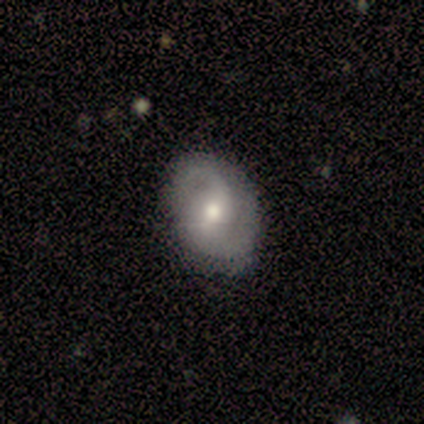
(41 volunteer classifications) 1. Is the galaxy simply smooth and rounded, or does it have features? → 71% featured or disk, 24% smooth, 5% star or artifact.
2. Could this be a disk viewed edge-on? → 97% no, 3% yes.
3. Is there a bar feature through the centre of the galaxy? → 50% no, 39% weak, 11% strong.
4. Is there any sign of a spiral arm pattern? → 82% yes, 18% no.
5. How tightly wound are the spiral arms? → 61% loose, 26% medium, 13% tight.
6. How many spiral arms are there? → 91% 2, 4% 1, 4% 3, 0% 4, 0% more than 4, 0% can't tell.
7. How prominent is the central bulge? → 82% moderate, 11% small, 4% large, 4% none, 0% dominant.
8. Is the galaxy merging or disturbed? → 87% none, 10% minor disturbance, 3% merger, 0% major disturbance.